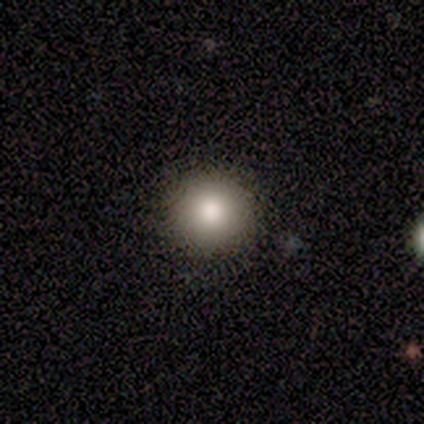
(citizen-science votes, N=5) Volunteers were most divided on "how rounded": round: 80%, in between: 20%, cigar-shaped: 0%. More confident: smooth or featured — smooth (100%); merging — none (80%).